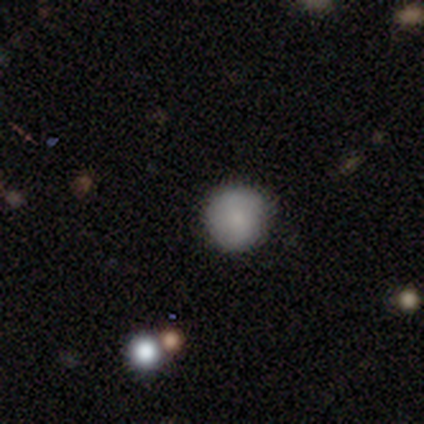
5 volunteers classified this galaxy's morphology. smooth 80%, star or artifact 20%, featured or disk 0%. Down the decision tree: how rounded — round (100%); merging — none (100%).